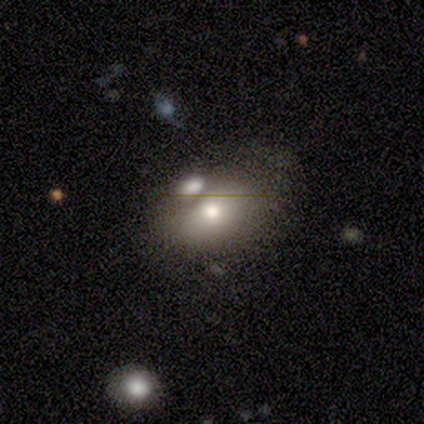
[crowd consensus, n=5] Smooth or featured? 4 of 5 (80%) said smooth. How rounded? 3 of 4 (75%) said in between. Merging? 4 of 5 (80%) said merger.